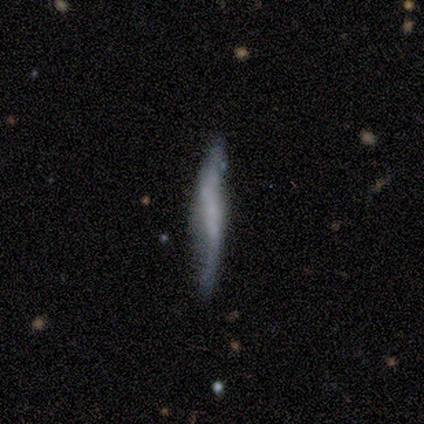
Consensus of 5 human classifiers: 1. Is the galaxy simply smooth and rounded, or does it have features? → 40% smooth (tied), 40% featured or disk (tied), 20% star or artifact.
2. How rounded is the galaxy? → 100% cigar-shaped, 0% round, 0% in between.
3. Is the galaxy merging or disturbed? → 75% minor disturbance, 25% none, 0% major disturbance, 0% merger.